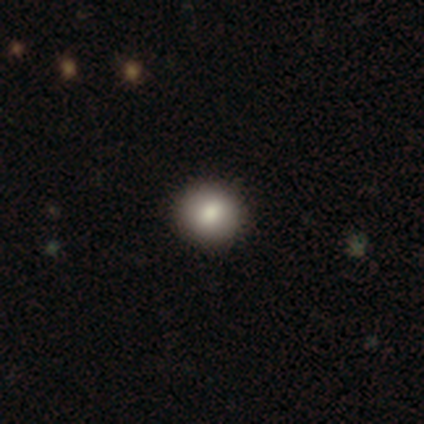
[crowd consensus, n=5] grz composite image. It shows a smooth galaxy with no disk features (80%) that is round (75%). Merging: none (100%).